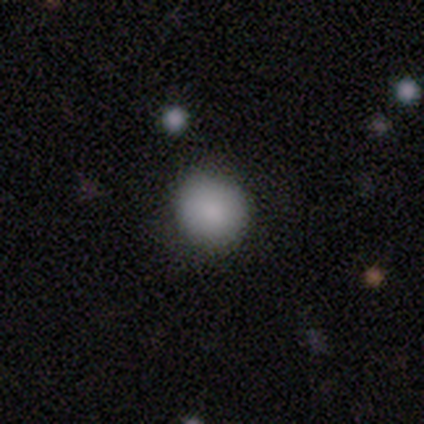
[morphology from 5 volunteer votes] Smooth or featured? smooth (100%)
How rounded? round (80%)
Merging? none (100%)